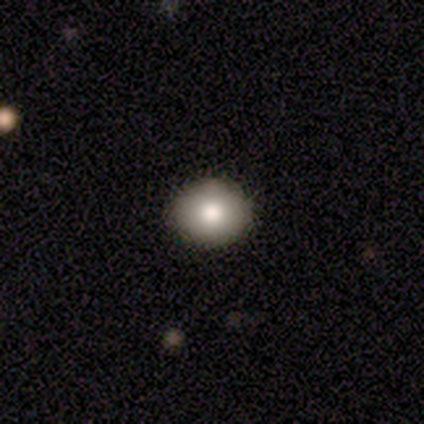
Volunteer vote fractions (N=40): Overall: smooth (72%). How rounded: round (79%). Merging: none (56%).